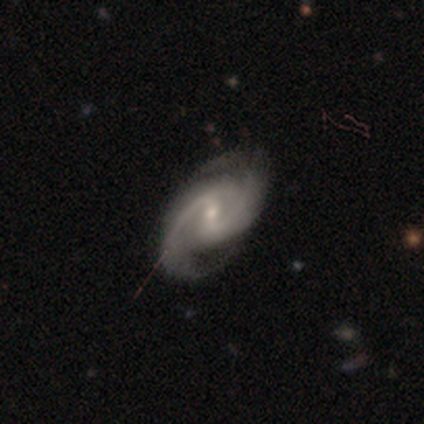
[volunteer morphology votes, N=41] This appears to be a featured or disk galaxy (100%) with a weak bar (60%), 2 (95%) medium (50%) spiral arms (100%) and a moderate central bulge (48%, tied with small). Merging: none (56%).